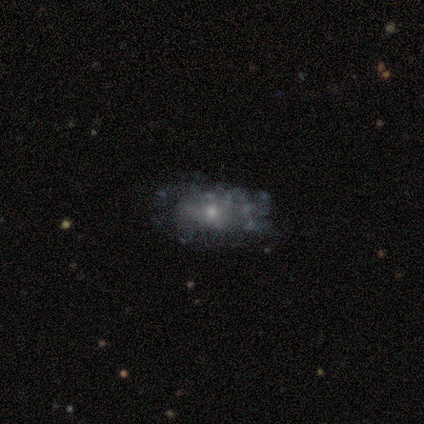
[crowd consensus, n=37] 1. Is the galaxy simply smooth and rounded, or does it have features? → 68% featured or disk, 19% star or artifact, 14% smooth.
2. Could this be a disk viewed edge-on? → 100% no, 0% yes.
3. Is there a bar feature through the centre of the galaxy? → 92% no, 8% weak, 0% strong.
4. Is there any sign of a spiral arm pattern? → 92% no, 8% yes.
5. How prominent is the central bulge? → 68% small, 28% moderate, 4% dominant, 0% large, 0% none.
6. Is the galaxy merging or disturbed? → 73% none, 10% minor disturbance, 10% major disturbance, 7% merger.